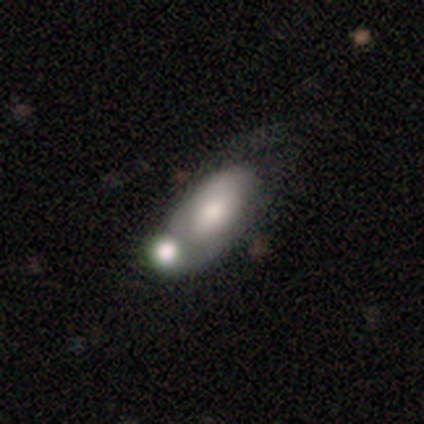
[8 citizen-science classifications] smooth 50%, featured or disk 38%, star or artifact 12%. Down the decision tree: how rounded — in between (100%); merging — minor disturbance (43%).